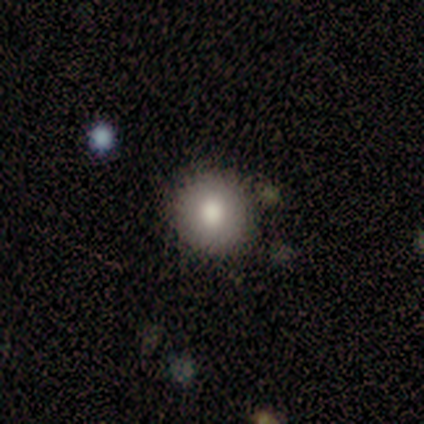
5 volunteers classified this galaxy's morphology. Q: Smooth or featured?
A: smooth (100%)
Q: How rounded?
A: round (80%); runner-up: in between (20%)
Q: Merging?
A: none (100%)